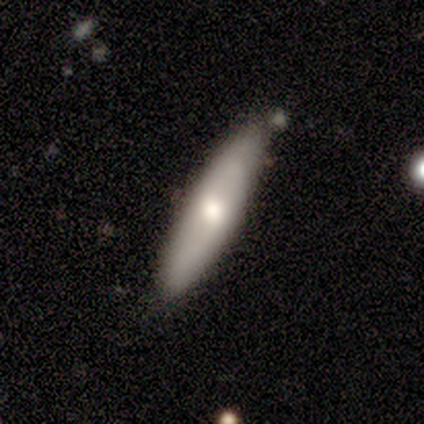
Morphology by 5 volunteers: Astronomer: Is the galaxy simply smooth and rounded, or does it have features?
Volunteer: featured or disk — 60% (runner-up: smooth, 40%).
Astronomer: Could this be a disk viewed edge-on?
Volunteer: no — 67%.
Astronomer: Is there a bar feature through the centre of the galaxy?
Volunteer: weak — 50%, tied with no at 50%.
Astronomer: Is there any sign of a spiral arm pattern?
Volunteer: yes — 50%, tied with no at 50%.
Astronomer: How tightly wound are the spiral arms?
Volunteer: medium — 100%.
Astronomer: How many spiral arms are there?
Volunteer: can't tell — 100%.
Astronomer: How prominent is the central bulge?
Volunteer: large — 50%, tied with moderate at 50%.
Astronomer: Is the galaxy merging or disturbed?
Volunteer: none — 40%, tied with minor disturbance at 40%.